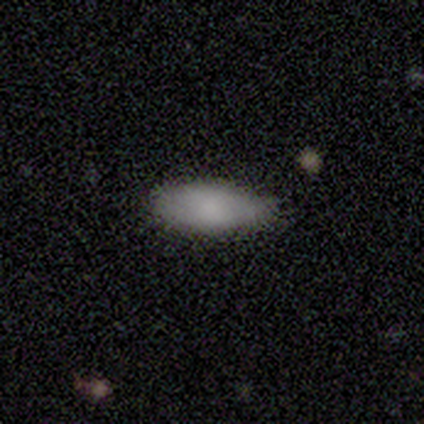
Overall: smooth (100%). How rounded: in between (100%). Merging: none (80%).